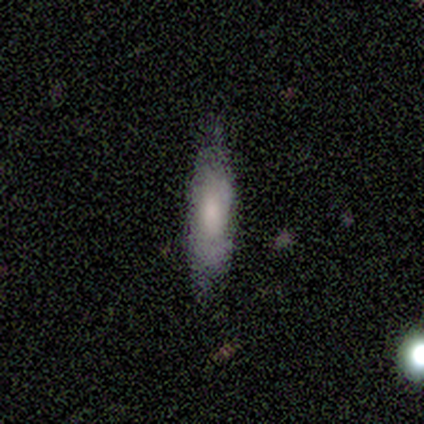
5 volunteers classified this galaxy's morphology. Smooth or featured? 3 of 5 (60%) said smooth. How rounded? 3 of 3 (100%) said cigar-shaped. Merging? 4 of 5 (80%) said none.